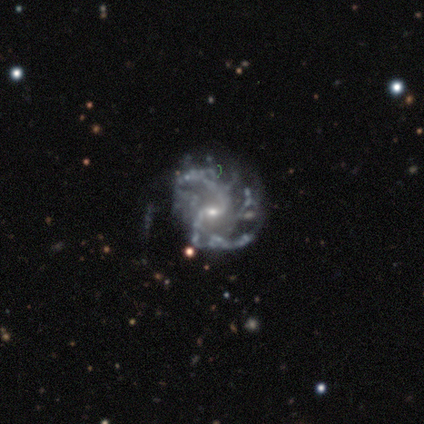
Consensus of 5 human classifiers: featured or disk 100%, smooth 0%, star or artifact 0%. Down the decision tree: edge-on disk — no (100%); bar — weak (80%); spiral arms — yes (100%); spiral arm count — 2 (100%); spiral winding — medium (80%); bulge size — small (80%); merging — none (60%).